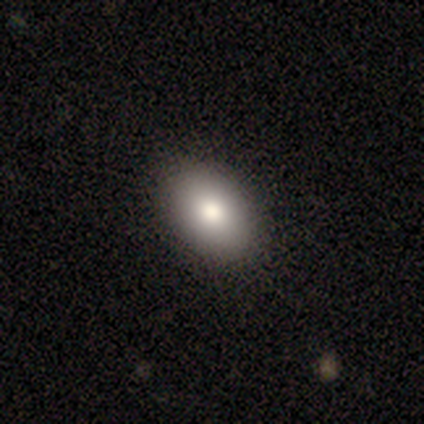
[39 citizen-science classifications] Smooth or featured?
  - smooth: 82% *
  - featured or disk: 15%
  - star or artifact: 3%
How rounded?
  - in between: 91% *
  - round: 9%
  - cigar-shaped: 0%
Merging?
  - none: 89% *
  - minor disturbance: 5%
  - merger: 5%
  - major disturbance: 0%